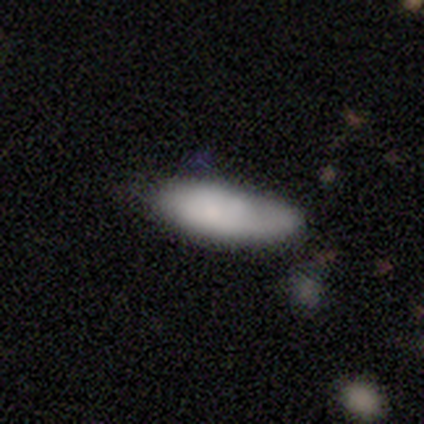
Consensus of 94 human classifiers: smooth-or-featured: smooth: 76% | featured or disk: 19% | star or artifact: 5%
  how-rounded: in between: 65% | cigar-shaped: 35% | round: 0%
  merging: none: 57% | minor disturbance: 31% | major disturbance: 6% | merger: 6%